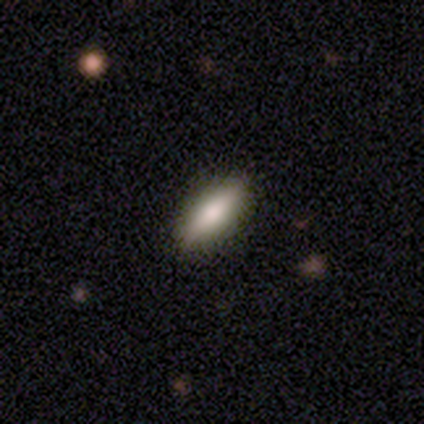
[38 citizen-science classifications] Smooth or featured? smooth (79%)
How rounded? in between (63%)
Merging? none (78%)